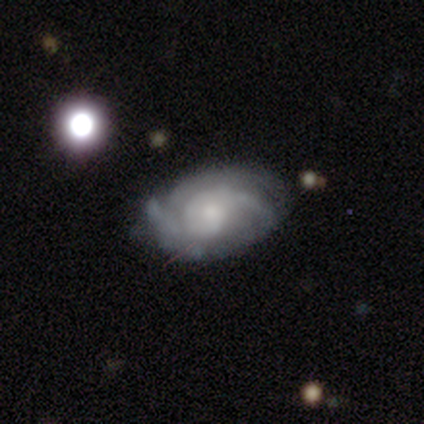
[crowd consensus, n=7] This is clearly a featured or disk galaxy (100%). It is clearly not viewed edge-on (100%). Bar: possibly no (57%). Spiral arm pattern: clearly yes (100%). Spiral arm count: clearly 2 (86%). Spiral winding: marginally loose (43%). Central bulge: possibly small (57%). Merging: possibly minor disturbance (57%).